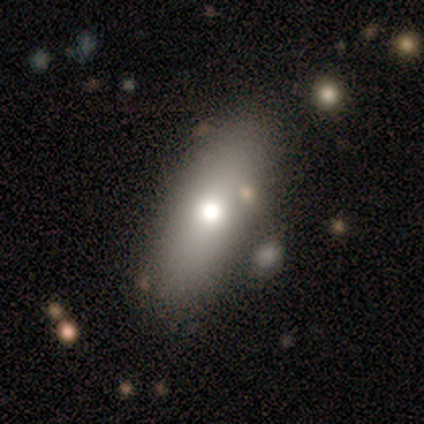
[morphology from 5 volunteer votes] A smooth galaxy with no disk features (80%) that is in between round and cigar-shaped (75%). Merging: none (100%).